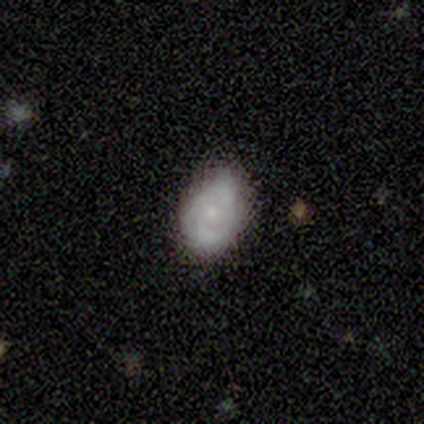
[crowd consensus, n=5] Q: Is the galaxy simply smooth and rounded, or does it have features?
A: featured or disk — 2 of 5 (40%, tied with star or artifact).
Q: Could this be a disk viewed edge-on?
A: yes — 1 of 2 (50%, tied with no).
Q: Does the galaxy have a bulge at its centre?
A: rounded — 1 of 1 (100%).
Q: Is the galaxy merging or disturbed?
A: minor disturbance — 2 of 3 (67%).